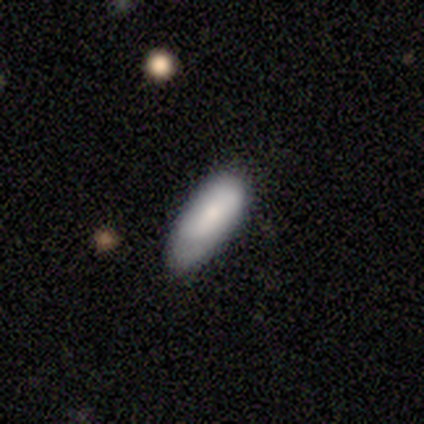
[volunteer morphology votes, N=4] Smooth or featured?
  - featured or disk: 75% *
  - smooth: 25%
  - star or artifact: 0%
Edge-on disk?
  - yes: 67% *
  - no: 33%
Edge-on bulge?
  - boxy: 50% * (tied)
  - none: 50% * (tied)
  - rounded: 0%
Merging?
  - none: 75% *
  - minor disturbance: 25%
  - major disturbance: 0%
  - merger: 0%